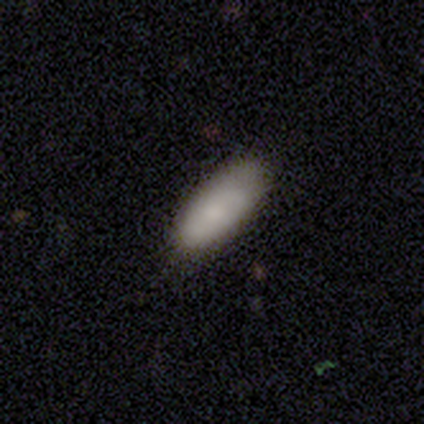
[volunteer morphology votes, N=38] This is likely a smooth galaxy (76%). How rounded: likely in between (76%). Merging: likely none (69%).